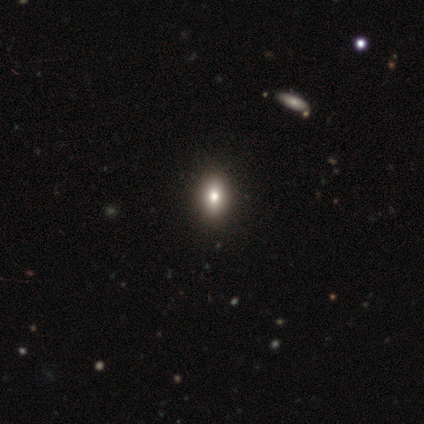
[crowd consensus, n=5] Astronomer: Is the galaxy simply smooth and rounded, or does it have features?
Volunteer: smooth — 60% (runner-up: star or artifact, 40%).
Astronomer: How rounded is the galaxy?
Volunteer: in between — 67%.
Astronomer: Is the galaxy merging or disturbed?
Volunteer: none — 100%.